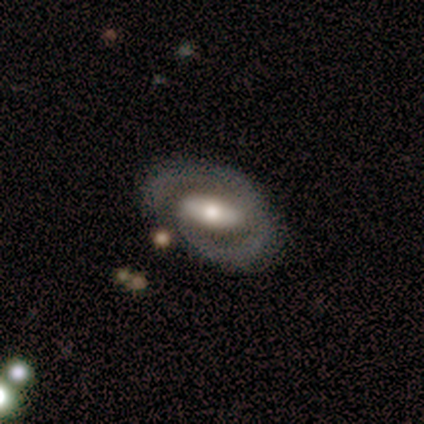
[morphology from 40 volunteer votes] A featured or disk galaxy (68%) with a strong bar (52%), 2 (75%) medium (44%) spiral arms (70%) and a moderate central bulge (48%).

Vote fractions:
- Smooth or featured? featured or disk: 68% / smooth: 25% / star or artifact: 8%
- Edge-on disk? no: 85% / yes: 15%
- Bar? strong: 52% / weak: 30% / no: 17%
- Spiral arms? yes: 70% / no: 30%
- Spiral winding? medium: 44% / tight: 38% / loose: 19%
- Spiral arm count? 2: 75% / 1: 12% / can't tell: 12% / 3: 0% / 4: 0% / more than 4: 0%
- Bulge size? moderate: 48% / large: 30% / small: 13% / dominant: 9% / none: 0%
- Merging? none: 57% / minor disturbance: 24% / major disturbance: 14% / merger: 5%